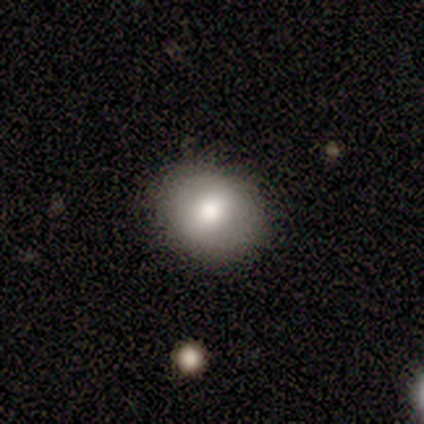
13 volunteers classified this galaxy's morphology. Smooth or featured: smooth — 77% (featured or disk — 15%)
How rounded: round — 60% (in between — 40%)
Merging: none — 92% (minor disturbance — 8%)